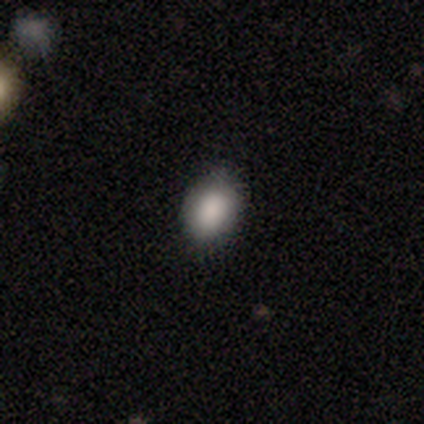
Smooth or featured? smooth (100%)
How rounded? in between (100%)
Merging? none (80%)